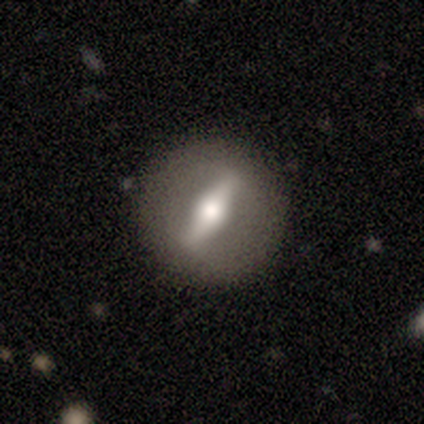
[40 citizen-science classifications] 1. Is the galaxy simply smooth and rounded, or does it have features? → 78% featured or disk, 22% smooth, 0% star or artifact.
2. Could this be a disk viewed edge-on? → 61% no, 39% yes.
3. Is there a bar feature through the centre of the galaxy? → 95% strong, 5% no, 0% weak.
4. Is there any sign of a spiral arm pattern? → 89% no, 11% yes.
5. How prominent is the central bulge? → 47% moderate, 42% large, 5% dominant, 5% small, 0% none.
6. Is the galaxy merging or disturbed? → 85% none, 10% minor disturbance, 2% major disturbance, 2% merger.